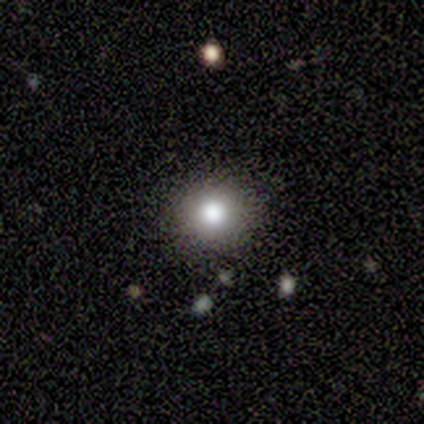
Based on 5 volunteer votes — A smooth galaxy with no disk features (100%) that is round (80%). Merging: none (100%).